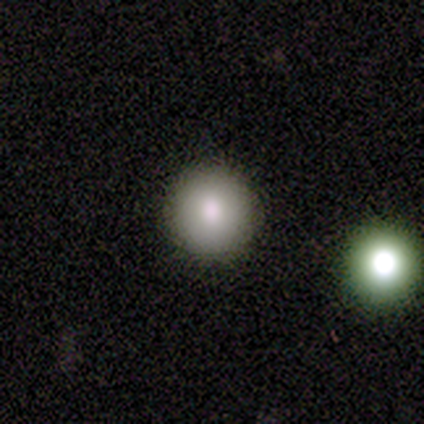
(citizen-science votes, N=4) Smooth or featured? smooth (75%)
How rounded? round (100%)
Merging? none (75%)